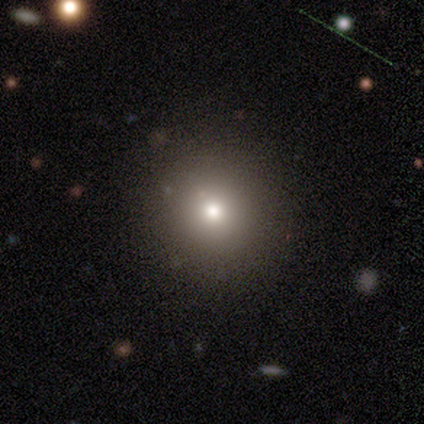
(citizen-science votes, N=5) smooth-or-featured: smooth: 40% (tied) | star or artifact: 40% (tied) | featured or disk: 20%
  how-rounded: round: 100% | in between: 0% | cigar-shaped: 0%
  merging: none: 100% | minor disturbance: 0% | major disturbance: 0% | merger: 0%